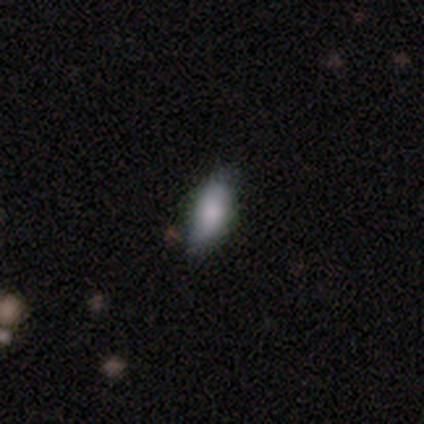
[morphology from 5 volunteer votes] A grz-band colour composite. It shows a smooth galaxy with no disk features (80%) that is in between round and cigar-shaped (100%). Merging: none (50%, tied with minor disturbance).